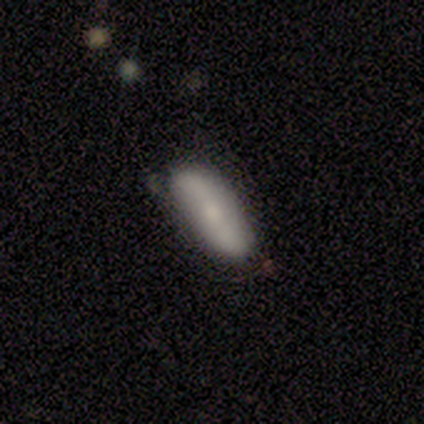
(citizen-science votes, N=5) Smooth or featured?
  - featured or disk: 60% *
  - smooth: 40%
  - star or artifact: 0%
Edge-on disk?
  - no: 67% *
  - yes: 33%
Bar?
  - weak: 50% * (tied)
  - no: 50% * (tied)
  - strong: 0%
Spiral arms?
  - yes: 100% *
  - no: 0%
Spiral winding?
  - loose: 100% *
  - tight: 0%
  - medium: 0%
Spiral arm count?
  - 2: 100% *
  - 1: 0%
  - 3: 0%
  - 4: 0%
  - more than 4: 0%
  - can't tell: 0%
Bulge size?
  - large: 50% * (tied)
  - small: 50% * (tied)
  - dominant: 0%
  - moderate: 0%
  - none: 0%
Merging?
  - none: 80% *
  - minor disturbance: 20%
  - major disturbance: 0%
  - merger: 0%